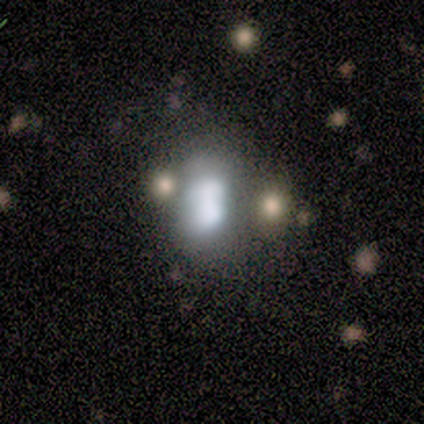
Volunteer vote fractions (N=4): Volunteers were most divided on "bulge size" (2-way tie): dominant: 50%, large: 50%, moderate: 0%, small: 0%, none: 0%. More confident: edge-on disk — no (100%); bar — no (100%); spiral arms — no (100%); merging — none (67%); smooth or featured — featured or disk (50%).